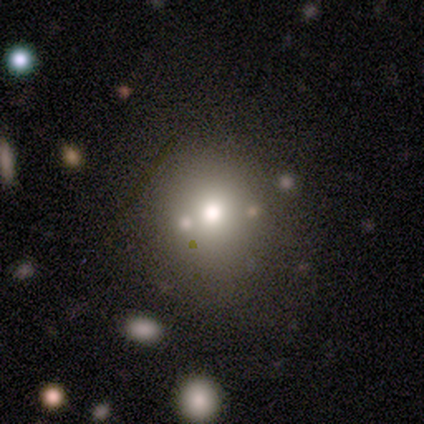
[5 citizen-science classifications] A smooth galaxy with no disk features (80%) that is round (50%, tied with in between).

Vote fractions:
- Smooth or featured? smooth: 80% / featured or disk: 20% / star or artifact: 0%
- How rounded? round: 50% (tied) / in between: 50% (tied) / cigar-shaped: 0%
- Merging? none: 60% / minor disturbance: 20% / major disturbance: 20% / merger: 0%